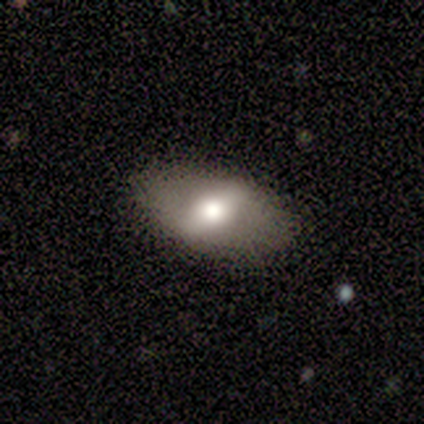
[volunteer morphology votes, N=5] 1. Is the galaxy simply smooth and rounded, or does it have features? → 60% smooth, 40% featured or disk, 0% star or artifact.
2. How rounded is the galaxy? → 100% in between, 0% round, 0% cigar-shaped.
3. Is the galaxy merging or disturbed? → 80% none, 20% minor disturbance, 0% major disturbance, 0% merger.